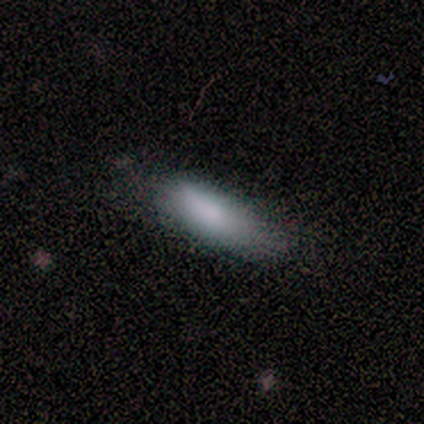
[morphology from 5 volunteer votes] This appears to be a smooth galaxy with no disk features (60%) that is in between round and cigar-shaped (100%). Merging: none (67%).